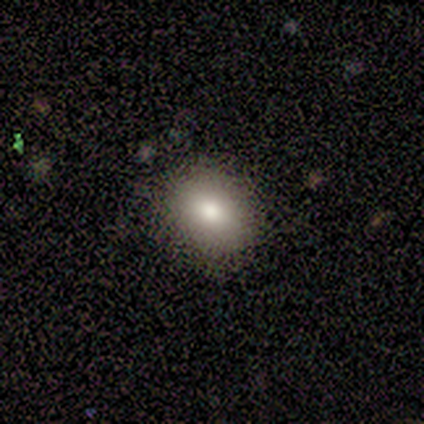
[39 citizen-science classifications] Smooth or featured: smooth — 79% (featured or disk — 10%)
How rounded: round — 55% (in between — 45%)
Merging: none — 89% (minor disturbance — 9%)